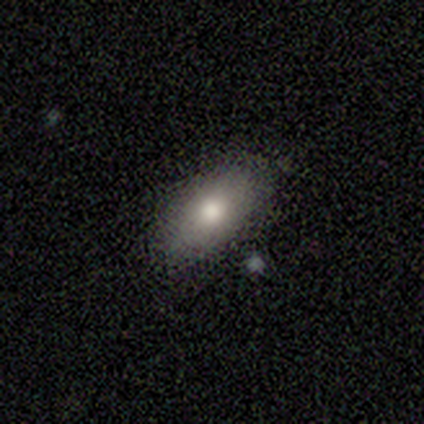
A smooth galaxy with no disk features (40%, tied with star or artifact) that is in between round and cigar-shaped (100%). Merging: none (100%).